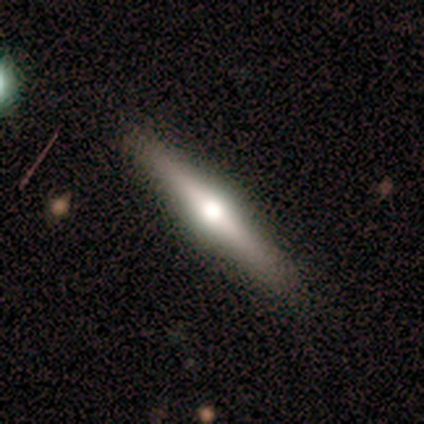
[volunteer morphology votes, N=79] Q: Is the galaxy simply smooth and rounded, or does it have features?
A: featured or disk — 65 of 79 (82%).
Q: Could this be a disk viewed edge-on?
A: yes — 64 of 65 (98%).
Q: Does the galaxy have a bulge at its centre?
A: rounded — 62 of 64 (97%).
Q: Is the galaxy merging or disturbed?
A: none — 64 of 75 (85%).